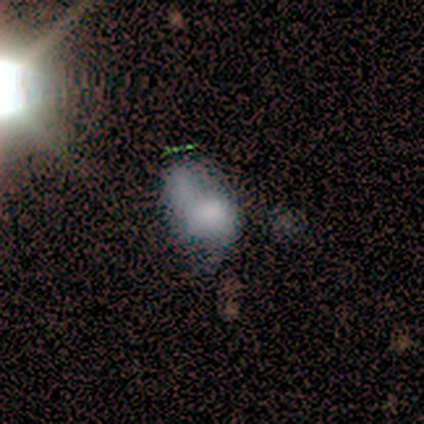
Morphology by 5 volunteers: Smooth or featured? smooth (40%, tied with featured or disk)
How rounded? round (50%, tied with in between)
Merging? minor disturbance (50%)